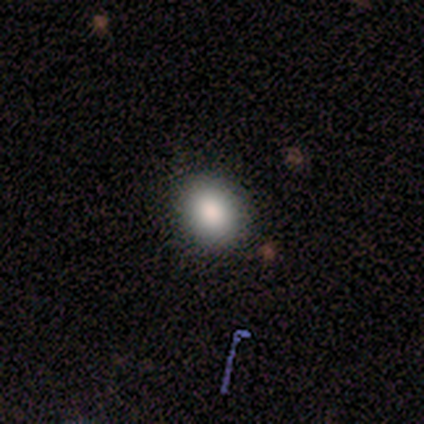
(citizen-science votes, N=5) Overall: smooth (60%; featured or disk 20%). How rounded: in between (100%). Merging: none (75%).